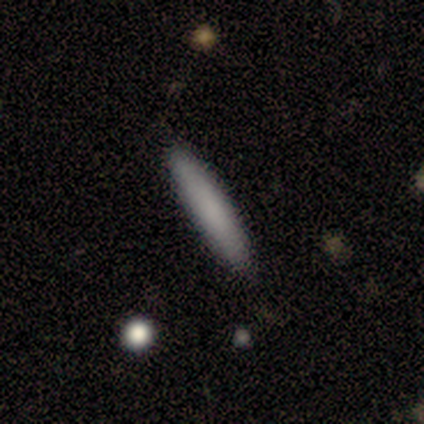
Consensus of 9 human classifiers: smooth_or_featured: smooth (p=1.00)
how_rounded: cigar-shaped (p=1.00)
merging: none (p=1.00)